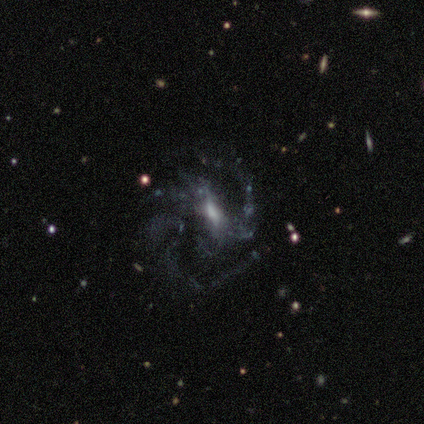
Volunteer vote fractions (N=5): Smooth or featured: featured or disk — 60% (smooth — 20%)
Edge-on disk: no — 100%
Bar: weak — 100%
Spiral arms: yes — 100%
Spiral winding: medium — 67% (tight — 33%)
Spiral arm count: 2 — 67% (3 — 33%)
Bulge size: moderate — 100%
Merging: none — 50% (tied with minor disturbance — 50%)